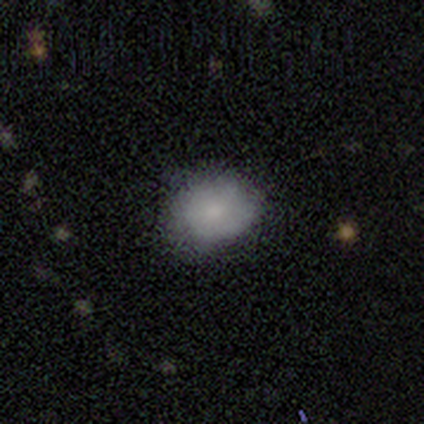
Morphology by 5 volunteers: Smooth or featured: smooth — 100%
How rounded: round — 80% (in between — 20%)
Merging: none — 80% (major disturbance — 20%)